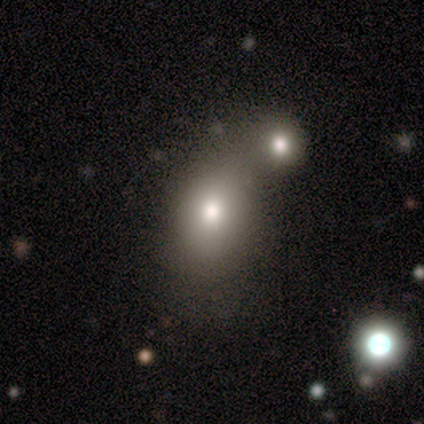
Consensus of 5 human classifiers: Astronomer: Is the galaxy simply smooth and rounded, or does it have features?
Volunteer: smooth — 40%, tied with featured or disk at 40%.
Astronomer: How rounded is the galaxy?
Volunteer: in between — 100%.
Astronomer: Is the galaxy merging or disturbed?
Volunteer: minor disturbance — 50%, tied with merger at 50%.